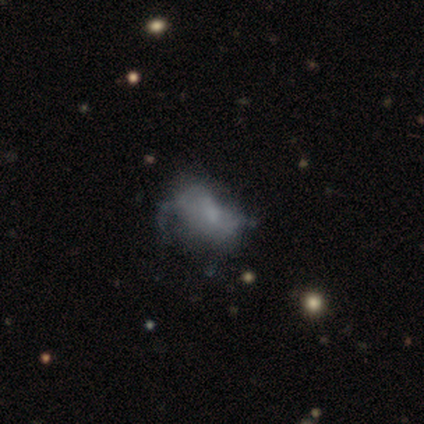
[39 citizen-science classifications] Smooth or featured? featured or disk (51%)
Edge-on disk? no (100%)
Bar? no (85%)
Spiral arms? no (95%)
Bulge size? none (70%)
Merging? major disturbance (26%)